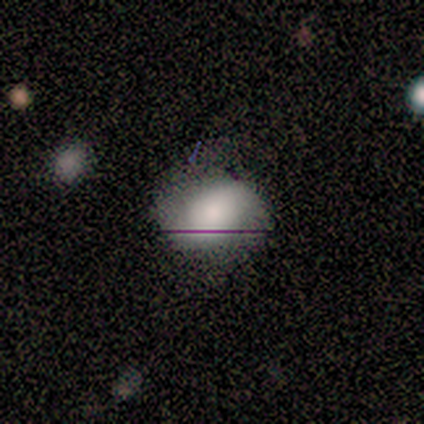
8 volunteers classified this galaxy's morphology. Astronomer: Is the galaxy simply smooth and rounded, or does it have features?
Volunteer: smooth — 38%, tied with featured or disk at 38%.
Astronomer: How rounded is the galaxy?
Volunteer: in between — 67%.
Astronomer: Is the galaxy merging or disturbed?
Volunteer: minor disturbance — 50% (runner-up: none, 33%).